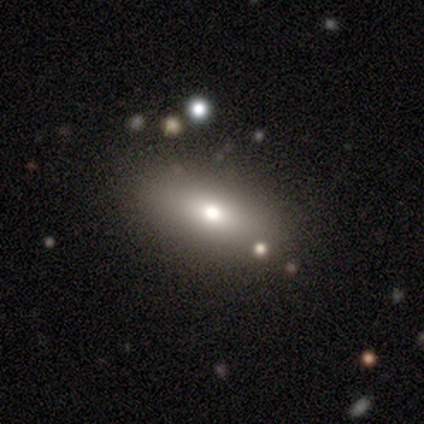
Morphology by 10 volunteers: smooth_or_featured: smooth (p=0.80) [alt: featured or disk p=0.20]
how_rounded: in between (p=0.88) [alt: round p=0.12]
merging: none (p=0.90) [alt: minor disturbance p=0.10]